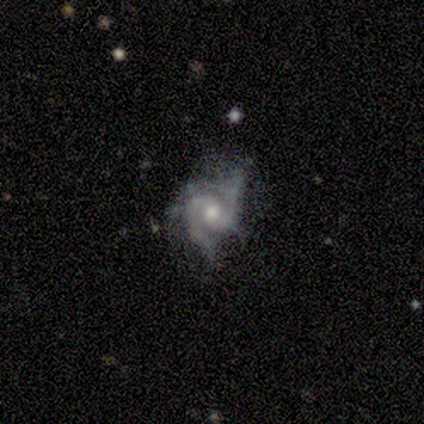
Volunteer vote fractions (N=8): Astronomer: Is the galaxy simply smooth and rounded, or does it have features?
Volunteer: featured or disk — 100%.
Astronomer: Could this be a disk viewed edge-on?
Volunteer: no — 100%.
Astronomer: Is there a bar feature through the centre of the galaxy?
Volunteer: no — 75%.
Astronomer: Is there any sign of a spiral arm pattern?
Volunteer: yes — 88%.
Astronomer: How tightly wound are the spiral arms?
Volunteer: medium — 43% (runner-up: tight, 29%).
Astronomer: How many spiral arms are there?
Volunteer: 2 — 86%.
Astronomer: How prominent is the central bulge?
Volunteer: moderate — 75%.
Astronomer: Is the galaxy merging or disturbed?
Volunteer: none — 75%.